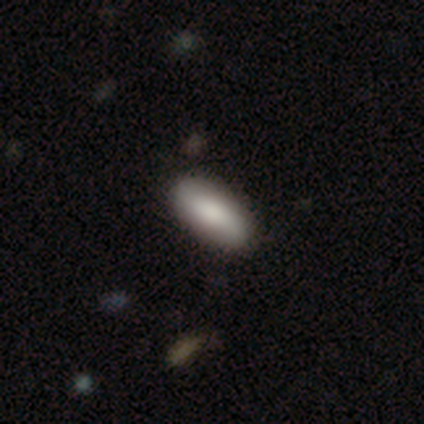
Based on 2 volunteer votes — Smooth or featured? smooth (100%)
How rounded? in between (100%)
Merging? none (100%)